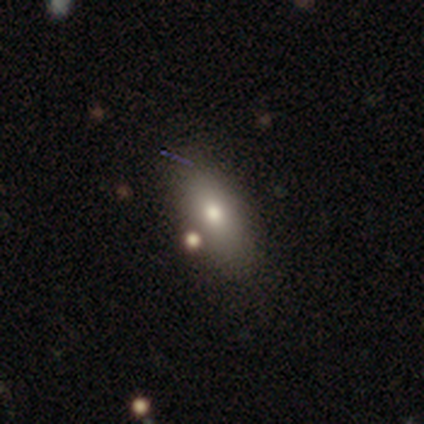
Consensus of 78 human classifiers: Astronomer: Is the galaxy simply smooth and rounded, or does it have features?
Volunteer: smooth — 79%.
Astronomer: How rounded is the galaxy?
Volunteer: in between — 85%.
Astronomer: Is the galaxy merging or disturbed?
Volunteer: none — 47%.